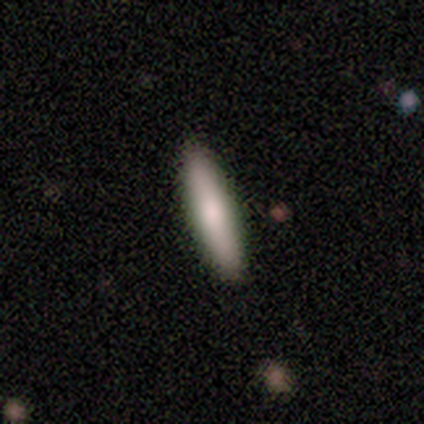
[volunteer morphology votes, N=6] Smooth or featured? smooth (100%)
How rounded? cigar-shaped (100%)
Merging? none (100%)